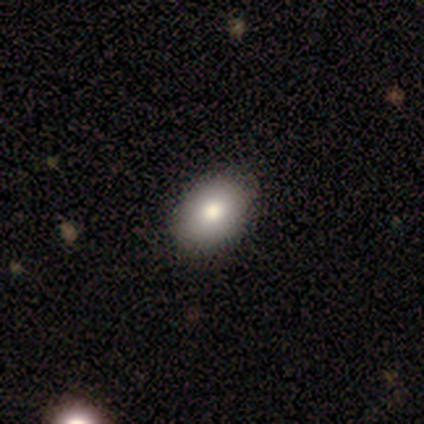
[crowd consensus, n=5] Smooth or featured: smooth — 100%
How rounded: in between — 100%
Merging: none — 100%